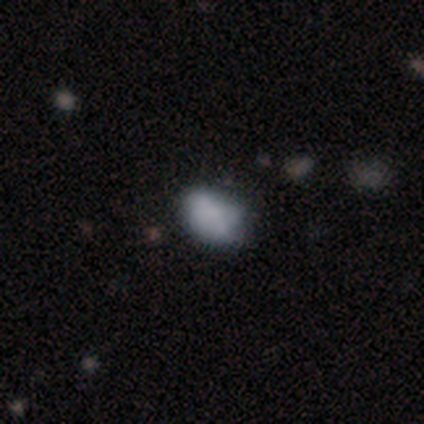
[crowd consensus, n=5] This appears to be a smooth galaxy with no disk features (100%) that is in between round and cigar-shaped (80%). Merging: none (60%).